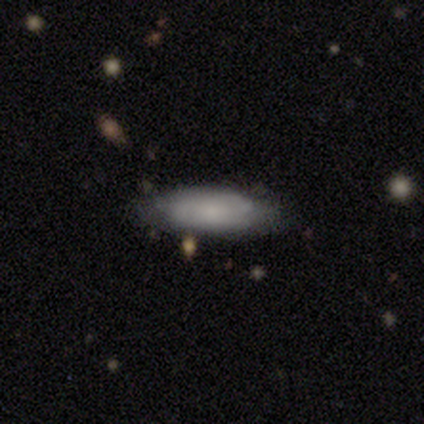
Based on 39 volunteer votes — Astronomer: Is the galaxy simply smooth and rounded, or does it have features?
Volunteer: smooth — 77%.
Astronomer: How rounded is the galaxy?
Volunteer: in between — 70%.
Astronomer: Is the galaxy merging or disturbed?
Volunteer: none — 66%.